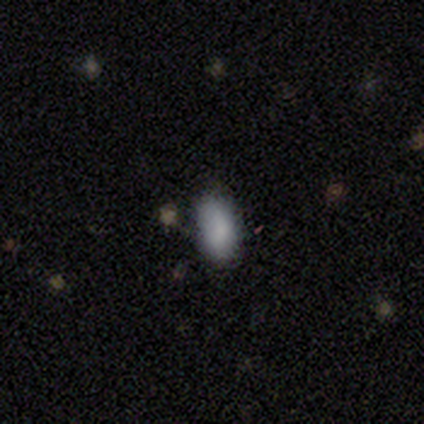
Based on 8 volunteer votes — This appears to be a smooth galaxy with no disk features (75%) that is in between round and cigar-shaped (100%). Merging: none (100%).